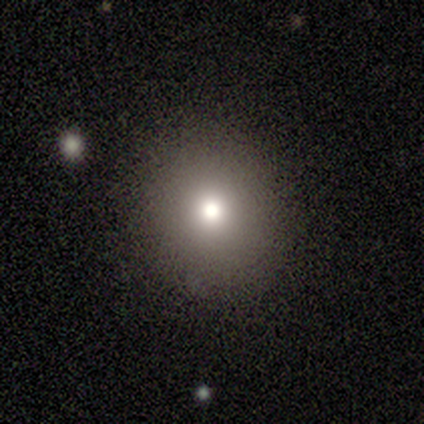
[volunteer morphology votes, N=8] A smooth galaxy with no disk features (88%) that is round (100%).

Vote fractions:
- Smooth or featured? smooth: 88% / star or artifact: 12% / featured or disk: 0%
- How rounded? round: 100% / in between: 0% / cigar-shaped: 0%
- Merging? none: 100% / minor disturbance: 0% / major disturbance: 0% / merger: 0%